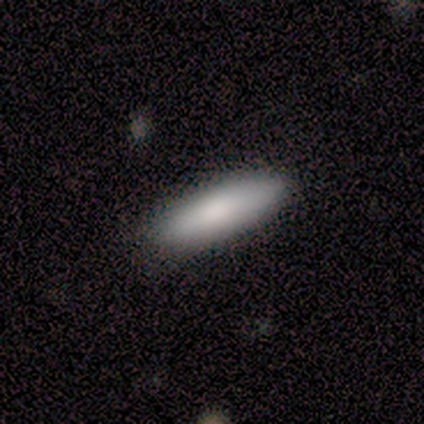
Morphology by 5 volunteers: Volunteers were most divided on "how rounded" (2-way tie): in between: 50%, cigar-shaped: 50%, round: 0%. More confident: smooth or featured — smooth (80%); merging — none (80%).